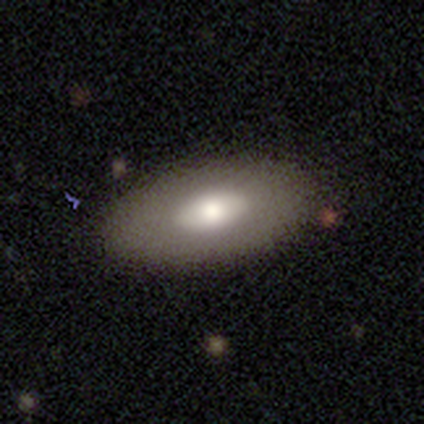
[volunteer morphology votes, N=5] Smooth or featured?
  - featured or disk: 60% *
  - smooth: 20%
  - star or artifact: 20%
Edge-on disk?
  - no: 67% *
  - yes: 33%
Bar?
  - no: 100% *
  - strong: 0%
  - weak: 0%
Spiral arms?
  - no: 100% *
  - yes: 0%
Bulge size?
  - moderate: 100% *
  - dominant: 0%
  - large: 0%
  - small: 0%
  - none: 0%
Merging?
  - none: 100% *
  - minor disturbance: 0%
  - major disturbance: 0%
  - merger: 0%